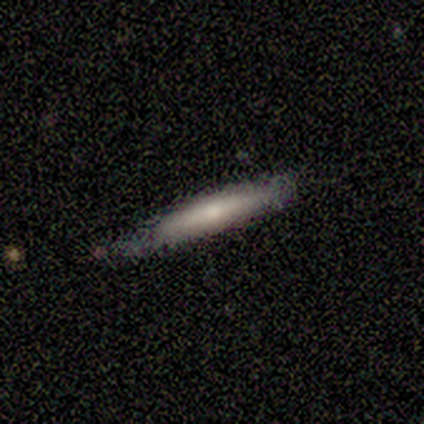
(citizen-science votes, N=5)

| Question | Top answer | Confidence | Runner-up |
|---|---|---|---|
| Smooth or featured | smooth | 80% | featured or disk (20%) |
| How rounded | cigar-shaped | 75% | in between (25%) |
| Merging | none | 60% | minor disturbance (40%) |